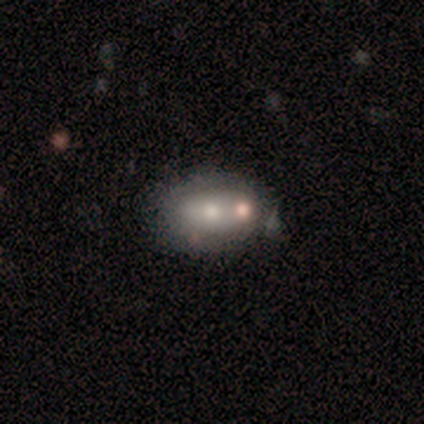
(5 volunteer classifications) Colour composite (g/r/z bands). It shows a smooth galaxy with no disk features (40%, tied with featured or disk) that is in between round and cigar-shaped (100%). Merging: minor disturbance (50%).